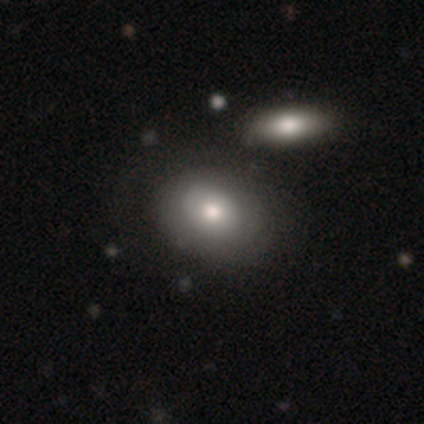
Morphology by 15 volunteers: This is likely a smooth galaxy (60%). How rounded: likely in between (67%). Merging: likely none (79%).